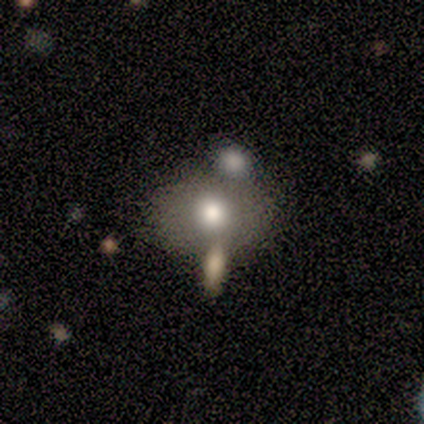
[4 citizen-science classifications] smooth-or-featured: smooth: 75% | featured or disk: 25% | star or artifact: 0%
  how-rounded: in between: 67% | round: 33% | cigar-shaped: 0%
  merging: none: 50% | minor disturbance: 25% | merger: 25% | major disturbance: 0%